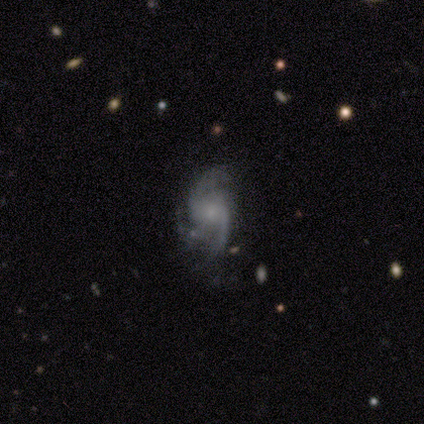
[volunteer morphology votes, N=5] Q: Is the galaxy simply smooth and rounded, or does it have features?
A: featured or disk — 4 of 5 (80%).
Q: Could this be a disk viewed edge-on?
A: no — 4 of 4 (100%).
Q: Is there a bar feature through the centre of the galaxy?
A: weak — 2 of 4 (50%, tied with no).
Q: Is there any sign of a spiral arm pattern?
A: yes — 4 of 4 (100%).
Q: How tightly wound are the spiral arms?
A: loose — 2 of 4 (50%).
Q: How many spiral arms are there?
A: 3 — 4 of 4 (100%).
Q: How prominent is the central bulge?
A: moderate — 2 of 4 (50%, tied with small).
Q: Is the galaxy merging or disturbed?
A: none — 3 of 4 (75%).